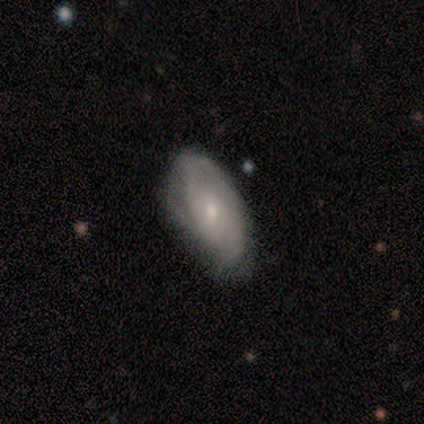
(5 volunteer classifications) Smooth or featured? featured or disk (80%)
Edge-on disk? no (100%)
Bar? weak (50%, tied with no)
Spiral arms? yes (75%)
Spiral winding? medium (100%)
Spiral arm count? 2 (67%)
Bulge size? moderate (50%, tied with small)
Merging? none (100%)